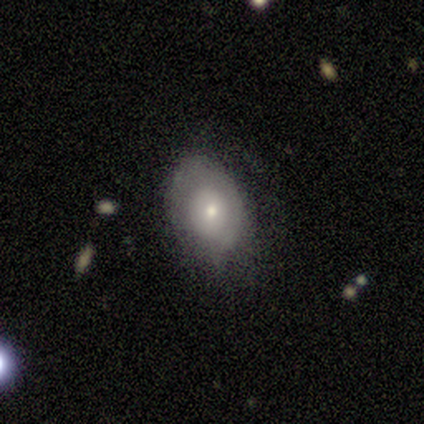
featured or disk 54%, smooth 44%, star or artifact 3%. Down the decision tree: edge-on disk — no (86%); bar — no (94%); spiral arms — no (67%); bulge size — small (61%); merging — none (63%).